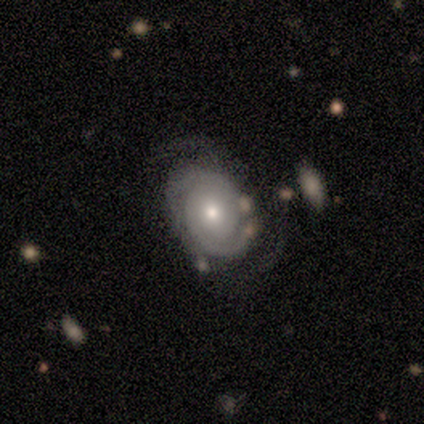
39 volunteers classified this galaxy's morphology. Overall: featured or disk (87%). Edge-on disk: no (97%). Bar: no (85%). Spiral arms: yes (100%). Spiral arm count: 2 (64%). Spiral winding: tight (73%). Bulge size: moderate (64%; small 33%). Merging: none (50%; minor disturbance 26%).